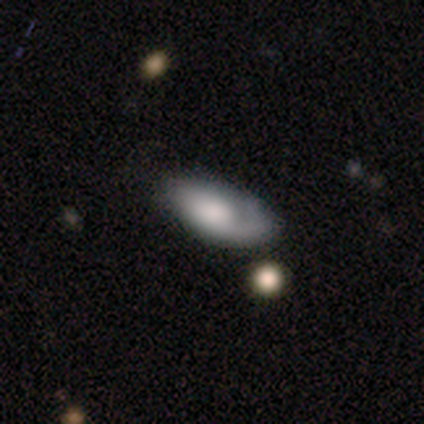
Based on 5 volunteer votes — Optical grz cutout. It shows a featured or disk galaxy (60%) with no bar (100%), 1 (100%) tight (50%, tied with medium) spiral arms (67%) and a dominant central bulge (33%, tied with large and moderate). Merging: none (40%, tied with major disturbance).